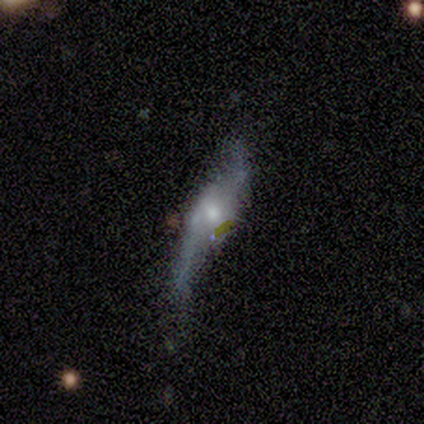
This is clearly a featured or disk galaxy (100%). It is clearly not viewed edge-on (80%). Bar: possibly strong (50%, tied with weak). Spiral arm pattern: clearly yes (100%). Spiral arm count: clearly 2 (100%). Spiral winding: possibly medium (50%, tied with loose). Central bulge: likely moderate (75%). Merging: likely none (60%).